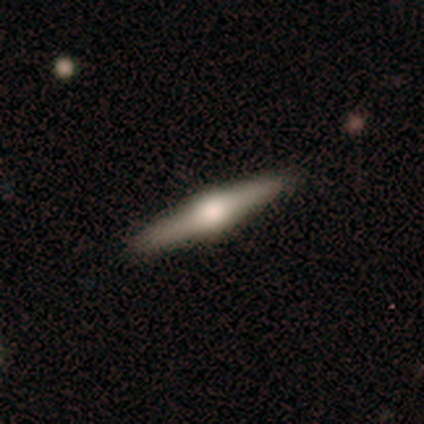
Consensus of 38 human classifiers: Smooth or featured? featured or disk (76%)
Edge-on disk? yes (100%)
Edge-on bulge? rounded (83%)
Merging? none (86%)